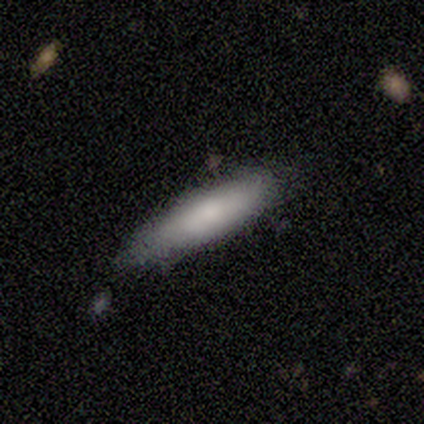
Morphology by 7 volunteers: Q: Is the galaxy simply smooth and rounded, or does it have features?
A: smooth — 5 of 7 (71%).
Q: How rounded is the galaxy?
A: in between — 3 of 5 (60%).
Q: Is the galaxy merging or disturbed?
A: none — 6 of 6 (100%).